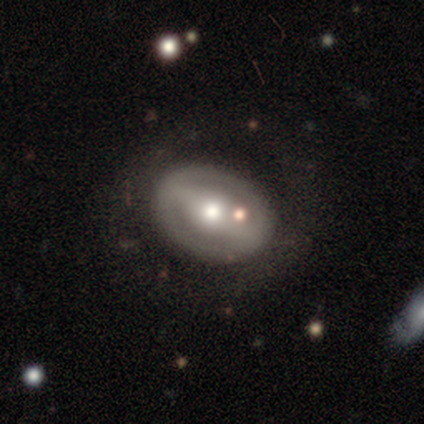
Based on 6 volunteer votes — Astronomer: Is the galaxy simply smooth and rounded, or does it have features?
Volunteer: featured or disk — 83%.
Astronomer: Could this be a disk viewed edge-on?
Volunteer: no — 80%.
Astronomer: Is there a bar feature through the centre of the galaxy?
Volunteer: weak — 50%.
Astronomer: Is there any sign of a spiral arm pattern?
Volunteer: no — 75%.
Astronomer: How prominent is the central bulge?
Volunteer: moderate — 75%.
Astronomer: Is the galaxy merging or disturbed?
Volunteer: none — 67%.